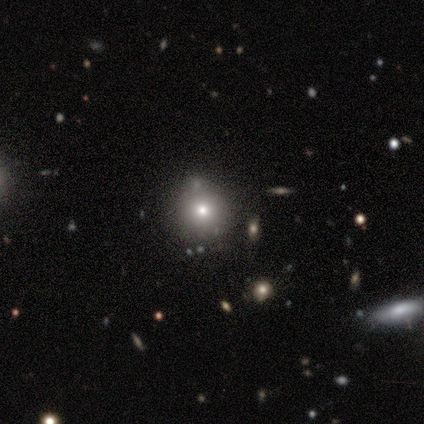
Smooth or featured? star or artifact (100%)